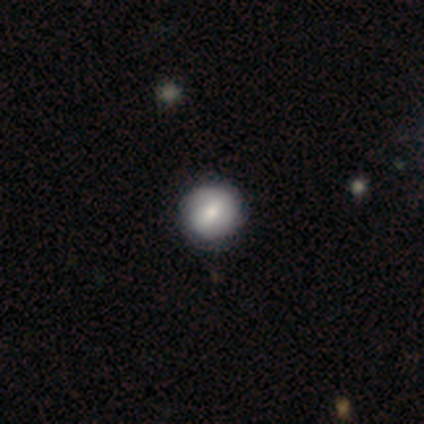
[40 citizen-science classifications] smooth 68%, featured or disk 30%, star or artifact 2%. Down the decision tree: how rounded — round (89%); merging — none (79%).